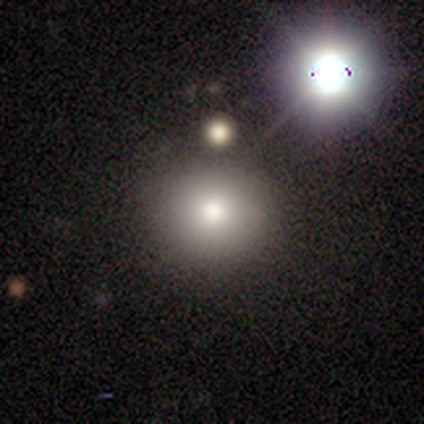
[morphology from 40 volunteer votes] Volunteers were most divided on "smooth or featured": smooth: 70%, featured or disk: 15%, star or artifact: 15%. More confident: how rounded — round (86%); merging — none (85%).